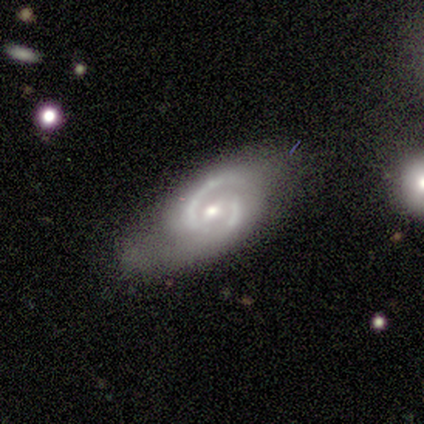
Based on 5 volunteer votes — Smooth or featured? featured or disk (100%)
Edge-on disk? no (100%)
Bar? weak (60%)
Spiral arms? yes (100%)
Spiral winding? medium (40%, tied with loose)
Spiral arm count? 2 (80%)
Bulge size? small (60%)
Merging? none (40%, tied with minor disturbance)